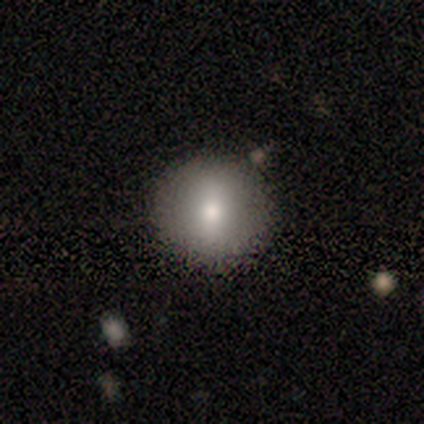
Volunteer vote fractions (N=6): Morphology: type=smooth (83%); roundness=round (100%); merging=none (100%).